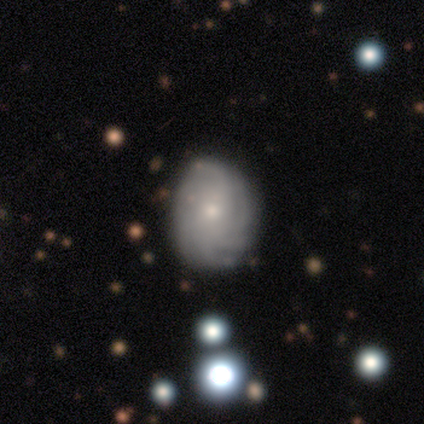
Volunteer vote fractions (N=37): Smooth or featured?
  - featured or disk: 49% *
  - smooth: 35%
  - star or artifact: 16%
Edge-on disk?
  - no: 94% *
  - yes: 6%
Bar?
  - no: 71% *
  - weak: 29%
  - strong: 0%
Spiral arms?
  - yes: 88% *
  - no: 12%
Spiral winding?
  - tight: 73% *
  - medium: 20%
  - loose: 7%
Spiral arm count?
  - more than 4: 67% *
  - 2: 13%
  - 1: 7%
  - 3: 7%
  - can't tell: 7%
  - 4: 0%
Bulge size?
  - small: 82% *
  - moderate: 12%
  - none: 6%
  - dominant: 0%
  - large: 0%
Merging?
  - none: 77% *
  - minor disturbance: 16%
  - major disturbance: 6%
  - merger: 0%